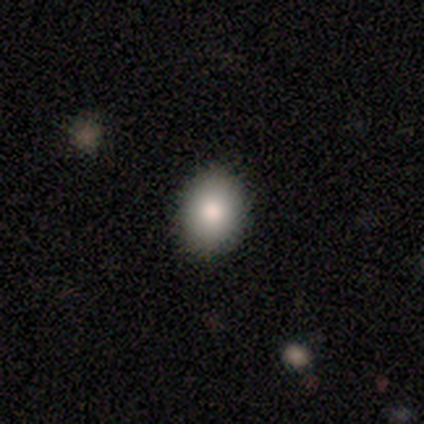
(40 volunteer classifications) Q: Smooth or featured?
A: smooth (88%); runner-up: star or artifact (8%)
Q: How rounded?
A: in between (66%); runner-up: round (34%)
Q: Merging?
A: none (92%); runner-up: minor disturbance (5%)